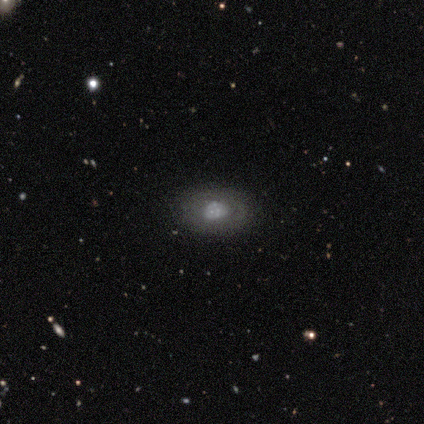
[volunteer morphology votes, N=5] Smooth or featured? 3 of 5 (60%) said smooth. How rounded? 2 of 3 (67%) said in between. Merging? 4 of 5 (80%) said none.